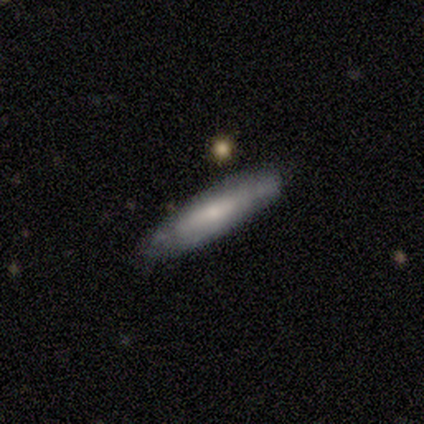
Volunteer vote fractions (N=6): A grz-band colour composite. It shows a featured or disk galaxy (67%) viewed edge-on (50%, tied with no) with no central bulge (100%). Merging: none (67%).